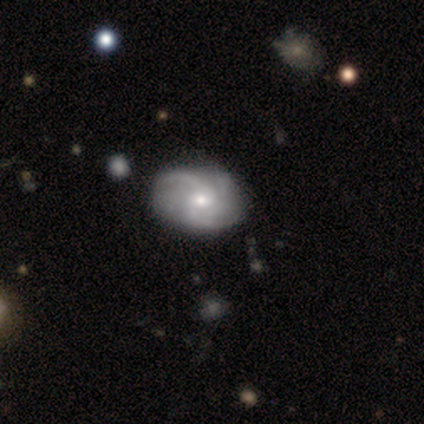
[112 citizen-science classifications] A featured or disk galaxy (86%) with no bar (79%), 2 (30%) medium (49%) spiral arms (96%) and a moderate central bulge (48%). Merging: none (79%).